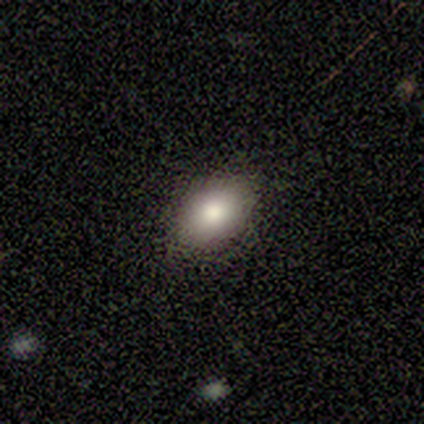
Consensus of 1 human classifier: A smooth galaxy with no disk features (100%) that is in between round and cigar-shaped (100%).

Vote fractions:
- Smooth or featured? smooth: 100% / featured or disk: 0% / star or artifact: 0%
- How rounded? in between: 100% / round: 0% / cigar-shaped: 0%
- Merging? none: 100% / minor disturbance: 0% / major disturbance: 0% / merger: 0%